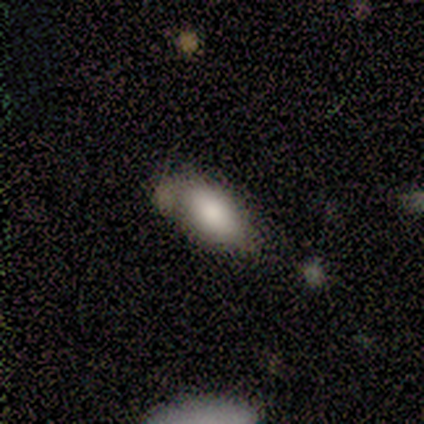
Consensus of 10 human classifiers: Overall: smooth (80%). How rounded: in between (100%). Merging: minor disturbance (62%; none 38%).